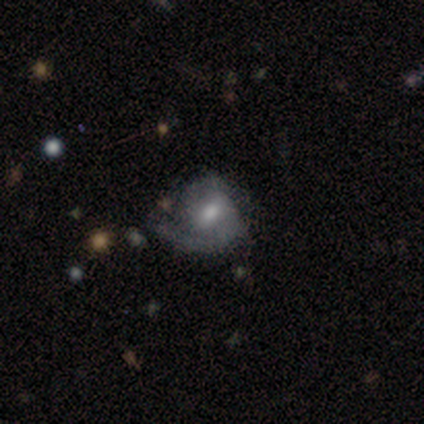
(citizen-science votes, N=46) This is likely a featured or disk galaxy (63%). It is clearly not viewed edge-on (100%). Bar: possibly no (48%). Spiral arm pattern: clearly yes (93%). Spiral arm count: likely 2 (67%). Spiral winding: likely medium (67%). Central bulge: likely moderate (76%). Merging: possibly none (48%).